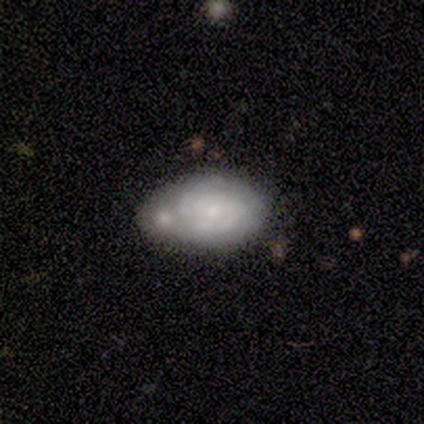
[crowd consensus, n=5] featured or disk 80%, smooth 20%, star or artifact 0%. Down the decision tree: edge-on disk — no (100%); bar — no (75%); spiral arms — yes (100%); spiral arm count — can't tell (75%); spiral winding — tight (50%, tied with medium); bulge size — small (75%); merging — merger (40%).